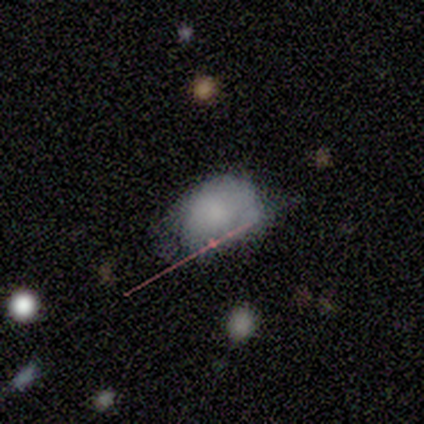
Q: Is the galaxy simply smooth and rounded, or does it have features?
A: smooth — 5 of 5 (100%).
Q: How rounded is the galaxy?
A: round — 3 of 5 (60%).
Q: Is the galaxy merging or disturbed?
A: minor disturbance — 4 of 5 (80%).